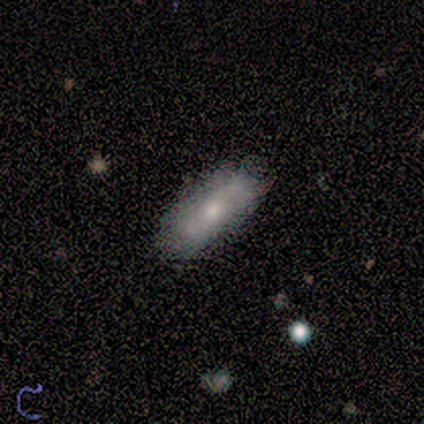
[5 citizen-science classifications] Smooth or featured? 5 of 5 (100%) said smooth. How rounded? 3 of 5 (60%) said in between. Merging? 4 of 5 (80%) said none.